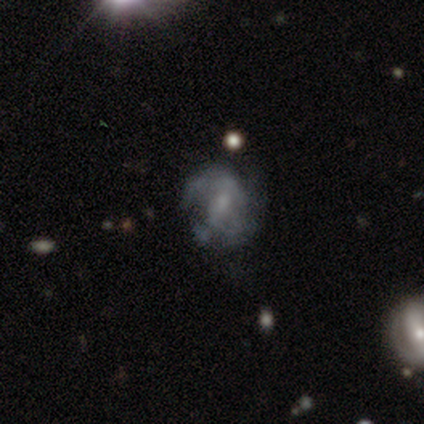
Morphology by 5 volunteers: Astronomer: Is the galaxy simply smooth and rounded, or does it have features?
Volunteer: featured or disk — 60%.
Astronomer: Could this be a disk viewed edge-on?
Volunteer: no — 100%.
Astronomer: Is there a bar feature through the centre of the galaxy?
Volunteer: weak — 67%.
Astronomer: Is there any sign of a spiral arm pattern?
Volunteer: yes — 100%.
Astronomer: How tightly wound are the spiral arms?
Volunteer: loose — 67%.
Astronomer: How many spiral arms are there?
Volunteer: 2 — 33%, tied with 3 and can't tell at 33%.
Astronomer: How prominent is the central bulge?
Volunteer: small — 100%.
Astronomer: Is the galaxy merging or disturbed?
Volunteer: none — 100%.